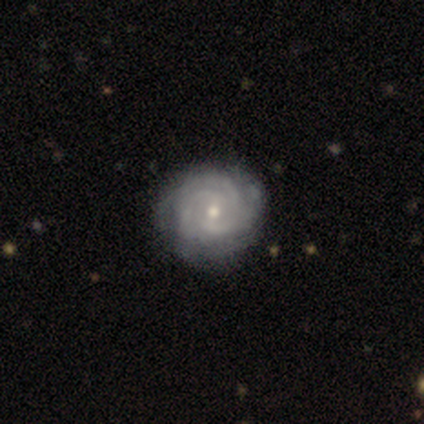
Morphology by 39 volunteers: Smooth or featured: featured or disk — 97% (smooth — 3%)
Edge-on disk: no — 100%
Bar: no — 61% (weak — 39%)
Spiral arms: yes — 100%
Spiral winding: tight — 68% (medium — 24%)
Spiral arm count: 3 — 45% (can't tell — 29%)
Bulge size: small — 50% (moderate — 47%)
Merging: none — 59% (minor disturbance — 10%)